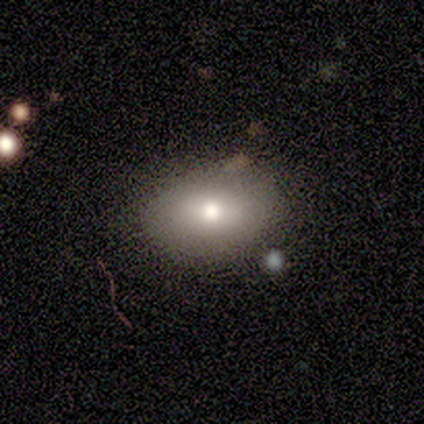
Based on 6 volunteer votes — A smooth galaxy with no disk features (83%) that is in between round and cigar-shaped (80%). Merging: none (100%).